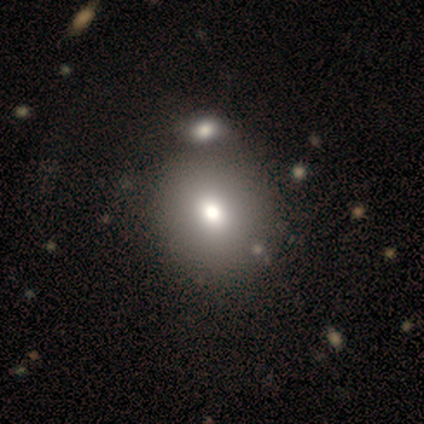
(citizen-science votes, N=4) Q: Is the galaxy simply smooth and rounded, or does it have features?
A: smooth — 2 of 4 (50%, tied with featured or disk).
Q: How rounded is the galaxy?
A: round — 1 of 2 (50%, tied with in between).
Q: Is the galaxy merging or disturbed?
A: none — 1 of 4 (25%, tied with minor disturbance, major disturbance and merger).